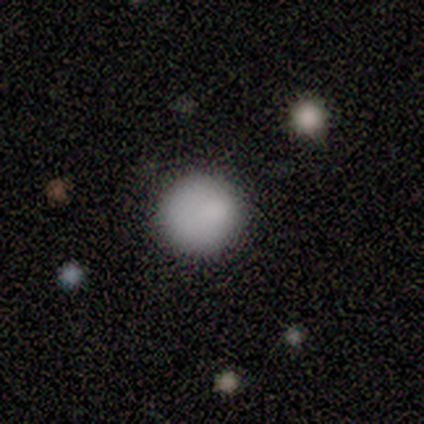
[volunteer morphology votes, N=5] type=smooth (80%); roundness=round (100%); merging=none (100%).